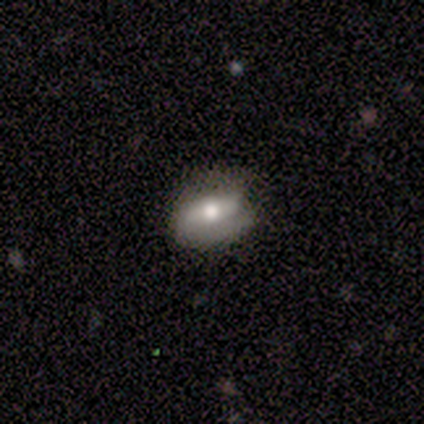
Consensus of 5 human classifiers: smooth_or_featured: featured or disk (p=0.60) [alt: smooth p=0.40]
disk_edge_on: no (p=1.00)
bar: no (p=0.67) [alt: strong p=0.33]
has_spiral_arms: no (p=1.00)
bulge_size: moderate (p=1.00)
merging: none (p=0.60) [alt: minor disturbance p=0.40]